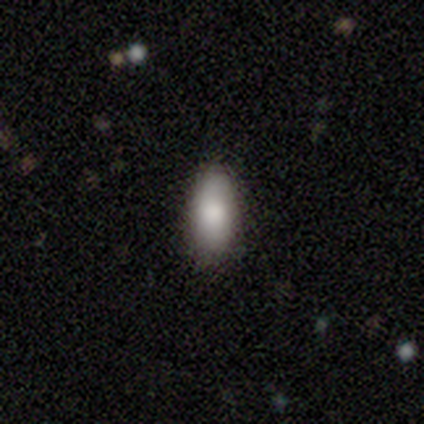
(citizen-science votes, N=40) Smooth or featured? smooth (72%)
How rounded? in between (93%)
Merging? none (91%)